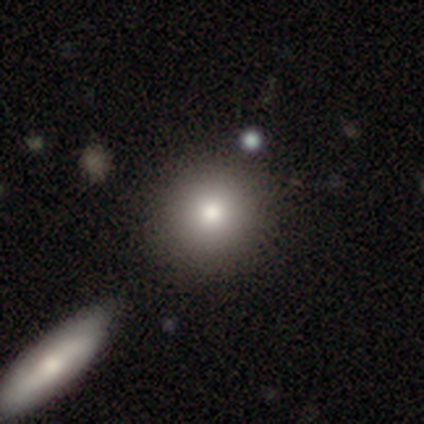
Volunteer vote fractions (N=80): smooth_or_featured: smooth (p=0.90) [alt: featured or disk p=0.06]
how_rounded: round (p=0.94) [alt: in between p=0.06]
merging: none (p=0.48) [alt: merger p=0.13]